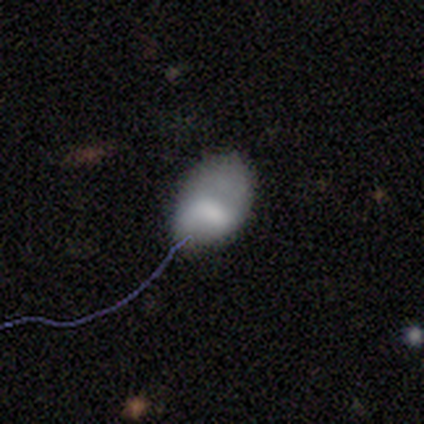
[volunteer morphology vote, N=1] A smooth galaxy with no disk features (100%) that is in between round and cigar-shaped (100%). Merging: minor disturbance (100%).